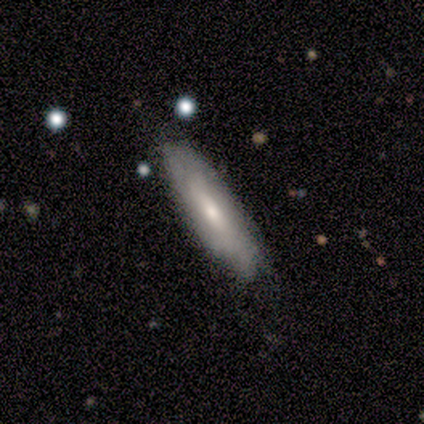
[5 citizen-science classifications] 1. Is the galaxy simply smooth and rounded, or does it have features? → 60% smooth, 40% featured or disk, 0% star or artifact.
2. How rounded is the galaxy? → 100% cigar-shaped, 0% round, 0% in between.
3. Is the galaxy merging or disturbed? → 60% none, 40% minor disturbance, 0% major disturbance, 0% merger.